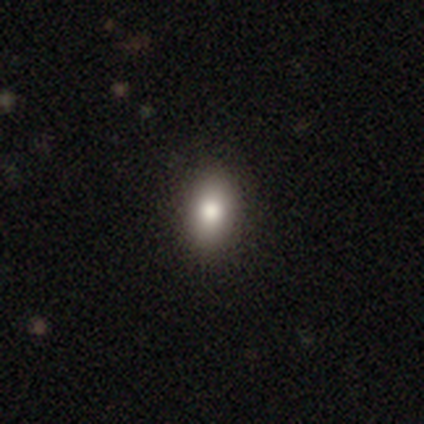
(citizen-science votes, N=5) Volunteers were most divided on "smooth or featured": smooth: 60%, featured or disk: 40%, star or artifact: 0%. More confident: how rounded — in between (100%); merging — none (80%).